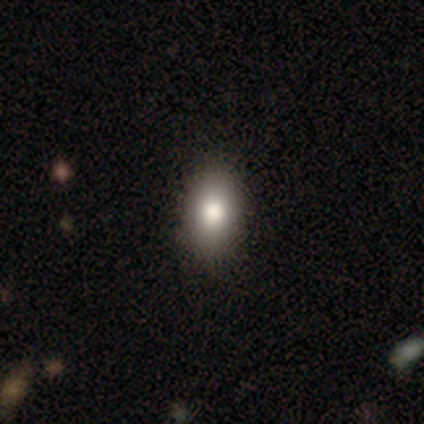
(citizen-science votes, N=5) A smooth galaxy with no disk features (100%) that is in between round and cigar-shaped (80%). Merging: none (80%).